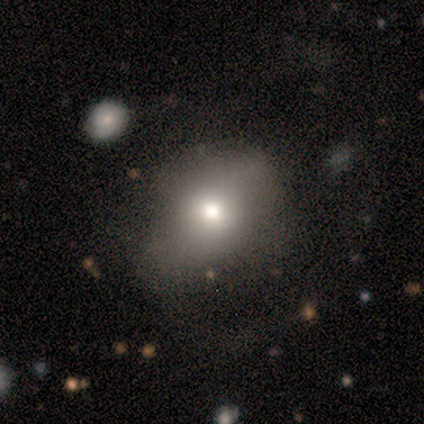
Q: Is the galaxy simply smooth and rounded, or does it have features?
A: smooth — 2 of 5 (40%, tied with featured or disk).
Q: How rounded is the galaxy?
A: round — 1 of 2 (50%, tied with in between).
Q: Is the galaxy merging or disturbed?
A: none — 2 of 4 (50%).